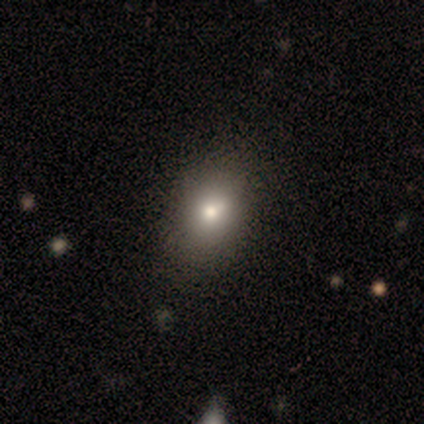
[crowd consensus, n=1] Smooth or featured? 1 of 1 (100%) said smooth. How rounded? 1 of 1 (100%) said in between. Merging? 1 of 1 (100%) said none.